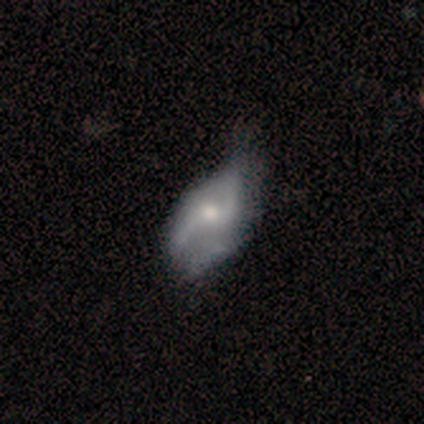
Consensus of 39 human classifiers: smooth-or-featured: featured or disk: 69% | smooth: 26% | star or artifact: 5%
  disk-edge-on: no: 100% | yes: 0%
    bar: no: 74% | weak: 26% | strong: 0%
    has-spiral-arms: yes: 78% | no: 22%
      spiral-winding: loose: 67% | medium: 24% | tight: 10%
      spiral-arm-count: 2: 86% | 1: 5% | 3: 5% | can't tell: 5% | 4: 0% | more than 4: 0%
    bulge-size: moderate: 48% | small: 37% | large: 11% | none: 4% | dominant: 0%
  merging: minor disturbance: 32% | none: 30% | major disturbance: 16% | merger: 0%